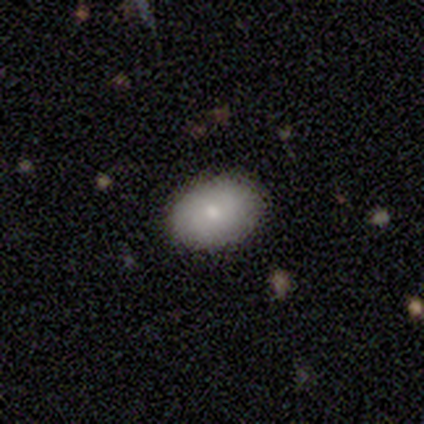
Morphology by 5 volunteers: This is clearly a smooth galaxy (80%). How rounded: clearly in between (100%). Merging: clearly none (100%).